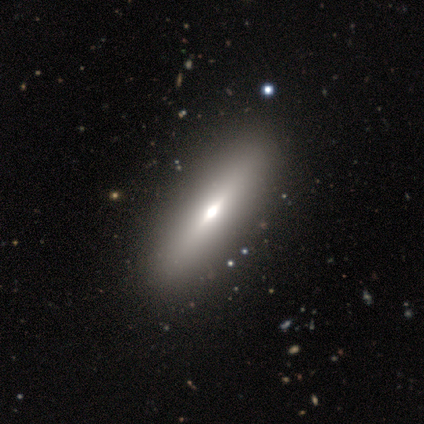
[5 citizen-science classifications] This appears to be a smooth galaxy with no disk features (60%) that is in between round and cigar-shaped (67%). Merging: none (75%).